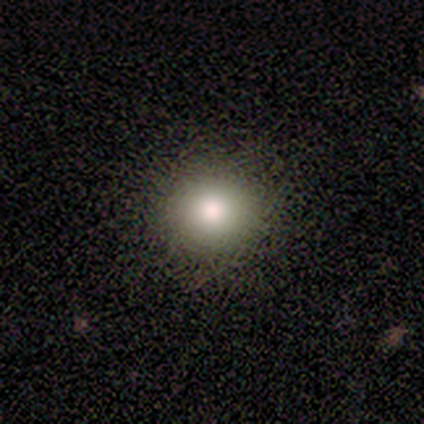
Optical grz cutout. It shows a smooth galaxy with no disk features (60%) that is round (100%). Merging: none (100%).